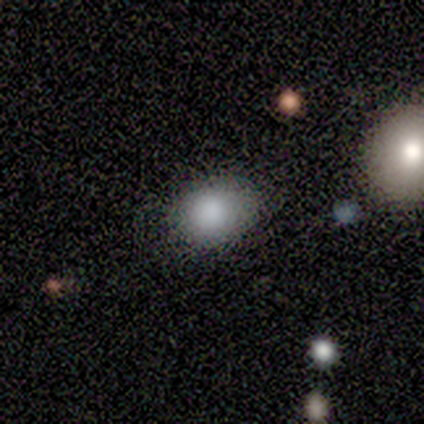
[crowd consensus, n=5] Smooth or featured?
  - smooth: 100% *
  - featured or disk: 0%
  - star or artifact: 0%
How rounded?
  - in between: 60% *
  - round: 40%
  - cigar-shaped: 0%
Merging?
  - minor disturbance: 60% *
  - none: 40%
  - major disturbance: 0%
  - merger: 0%